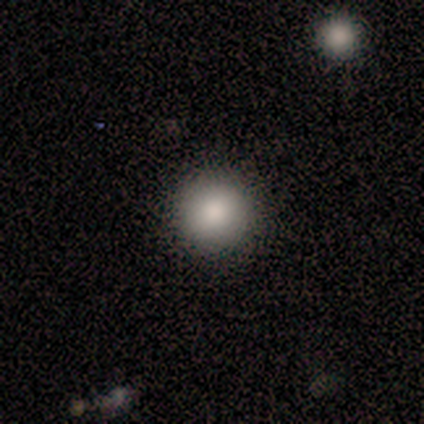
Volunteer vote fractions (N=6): smooth_or_featured: smooth (p=0.50) [tied with: star or artifact p=0.50]
how_rounded: round (p=0.67) [alt: in between p=0.33]
merging: none (p=1.00)